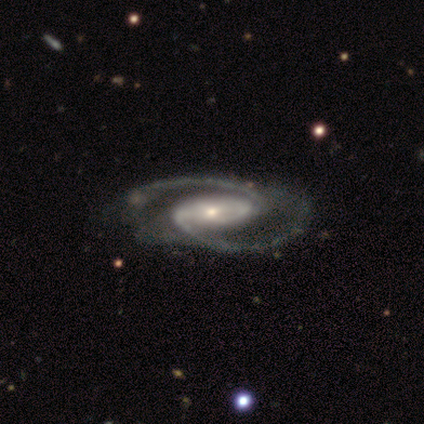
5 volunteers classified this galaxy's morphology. This appears to be a featured or disk galaxy (80%) with a weak bar (50%), 2 (100%) tight (33%, tied with medium and loose) spiral arms (75%) and a small central bulge (100%). Merging: none (75%).